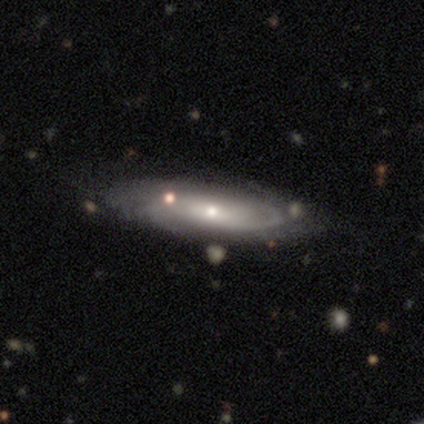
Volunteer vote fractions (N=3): Q: Smooth or featured?
A: featured or disk (100%)
Q: Edge-on disk?
A: no (67%); runner-up: yes (33%)
Q: Bar?
A: weak (50%); tied with: no (50%)
Q: Spiral arms?
A: yes (50%); tied with: no (50%)
Q: Spiral winding?
A: medium (100%)
Q: Spiral arm count?
A: 2 (100%)
Q: Bulge size?
A: small (100%)
Q: Merging?
A: none (33%); tied with: minor disturbance (33%); major disturbance (33%)